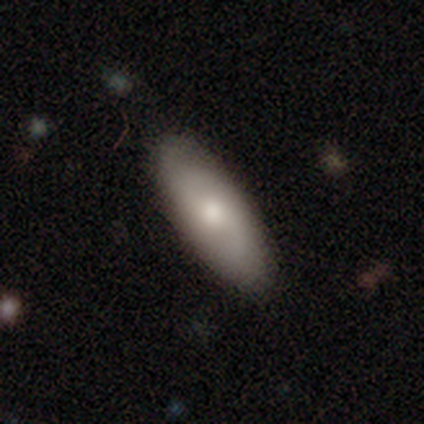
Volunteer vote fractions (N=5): Morphology: type=smooth (80%); roundness=in between (75%); merging=none (100%).